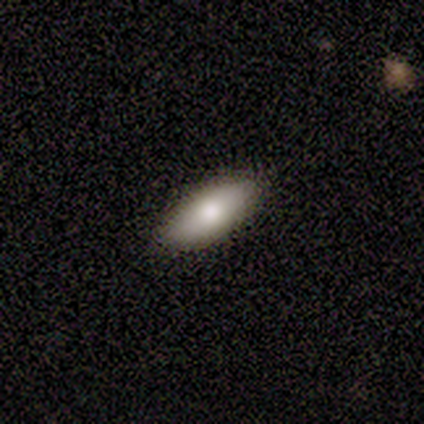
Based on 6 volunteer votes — smooth_or_featured: smooth (p=0.83) [alt: star or artifact p=0.17]
how_rounded: in between (p=1.00)
merging: none (p=1.00)